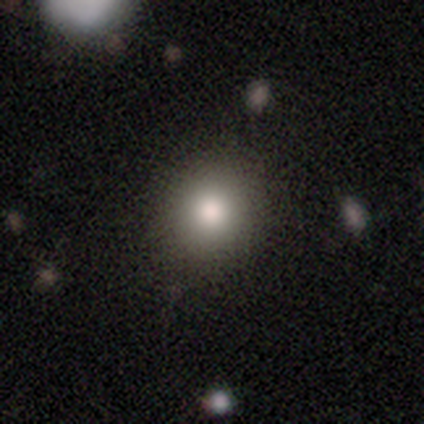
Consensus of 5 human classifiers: Smooth or featured? smooth (80%)
How rounded? round (75%)
Merging? none (60%)